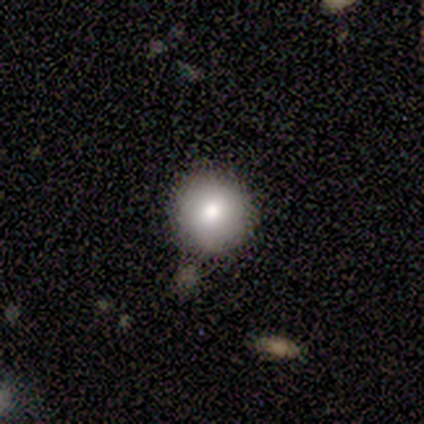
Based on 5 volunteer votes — Smooth or featured?
  - smooth: 80% *
  - featured or disk: 20%
  - star or artifact: 0%
How rounded?
  - round: 100% *
  - in between: 0%
  - cigar-shaped: 0%
Merging?
  - none: 80% *
  - minor disturbance: 20%
  - major disturbance: 0%
  - merger: 0%